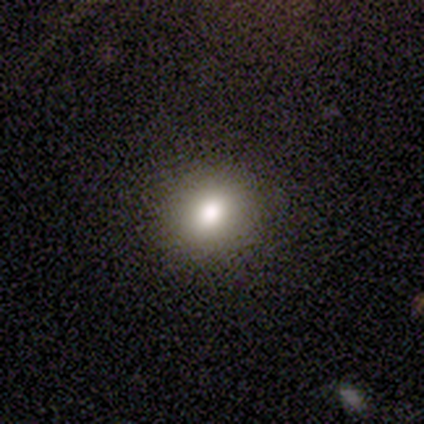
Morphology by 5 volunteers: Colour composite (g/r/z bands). It shows a smooth galaxy with no disk features (80%) that is round (50%, tied with in between). Merging: none (75%).